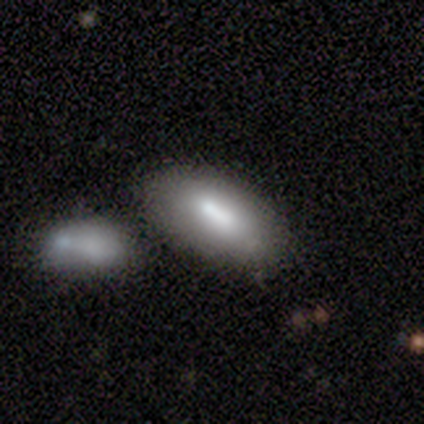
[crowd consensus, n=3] Smooth or featured: smooth — 67% (featured or disk — 33%)
How rounded: in between — 100%
Merging: none — 67% (merger — 33%)